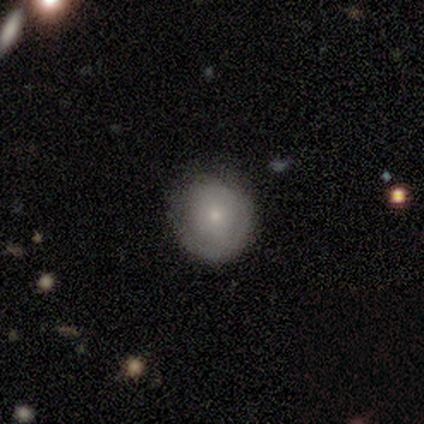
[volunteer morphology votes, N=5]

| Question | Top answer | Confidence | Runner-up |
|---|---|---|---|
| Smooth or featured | smooth | 100% | — |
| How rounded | round | 80% | in between (20%) |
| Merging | none | 60% | minor disturbance (40%) |